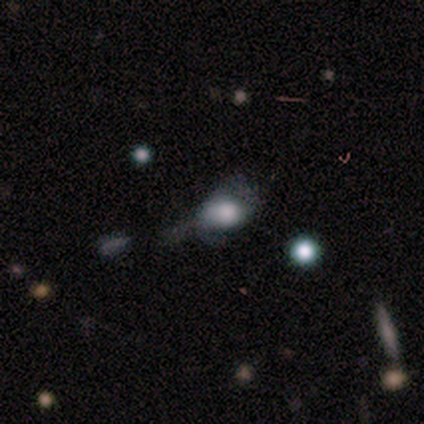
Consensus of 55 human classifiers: Smooth or featured? smooth (56%)
How rounded? in between (74%)
Merging? none (37%)